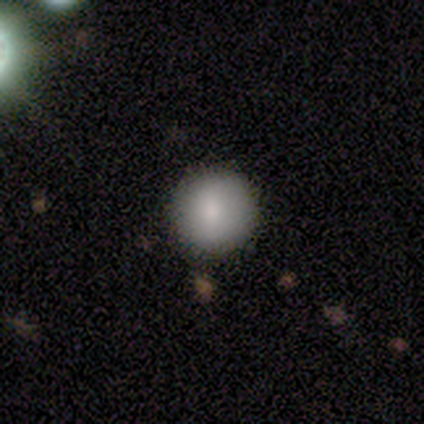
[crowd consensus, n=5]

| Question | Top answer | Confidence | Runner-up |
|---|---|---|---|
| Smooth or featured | smooth | 80% | featured or disk (20%) |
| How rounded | round | 100% | — |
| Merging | none | 80% | major disturbance (20%) |